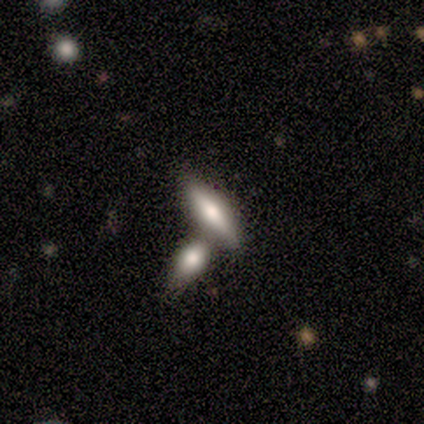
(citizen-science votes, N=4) Smooth or featured?
  - featured or disk: 75% *
  - smooth: 25%
  - star or artifact: 0%
Edge-on disk?
  - yes: 100% *
  - no: 0%
Edge-on bulge?
  - rounded: 100% *
  - boxy: 0%
  - none: 0%
Merging?
  - none: 50% *
  - major disturbance: 25%
  - merger: 25%
  - minor disturbance: 0%